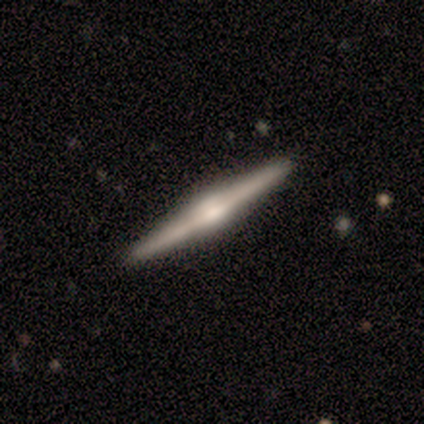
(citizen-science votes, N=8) Morphology: type=featured or disk (100%); edge-on=yes (100%); edge-on bulge=rounded (88%); merging=none (100%).